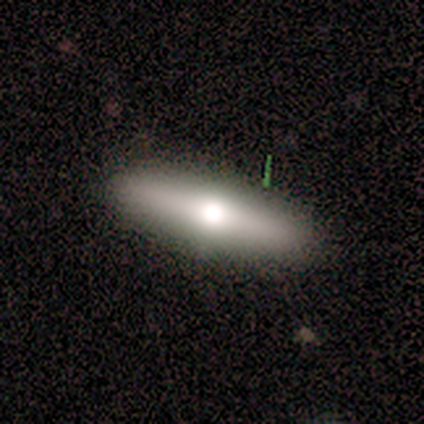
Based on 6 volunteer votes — A smooth galaxy with no disk features (67%) that is in between round and cigar-shaped (75%). Merging: none (83%).